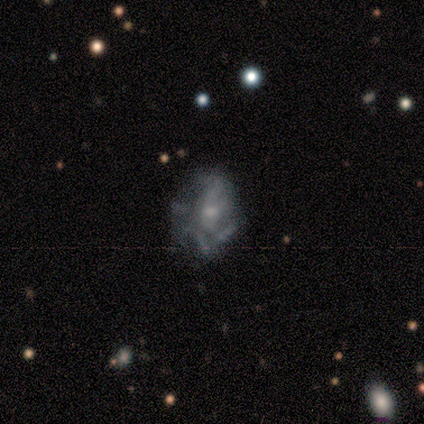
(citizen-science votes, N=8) Q: Smooth or featured?
A: featured or disk (62%); runner-up: star or artifact (25%)
Q: Edge-on disk?
A: no (100%)
Q: Bar?
A: no (80%); runner-up: weak (20%)
Q: Spiral arms?
A: yes (80%); runner-up: no (20%)
Q: Spiral winding?
A: tight (50%); runner-up: medium (25%)
Q: Spiral arm count?
A: can't tell (75%); runner-up: more than 4 (25%)
Q: Bulge size?
A: moderate (60%); runner-up: small (40%)
Q: Merging?
A: none (67%); runner-up: minor disturbance (17%)